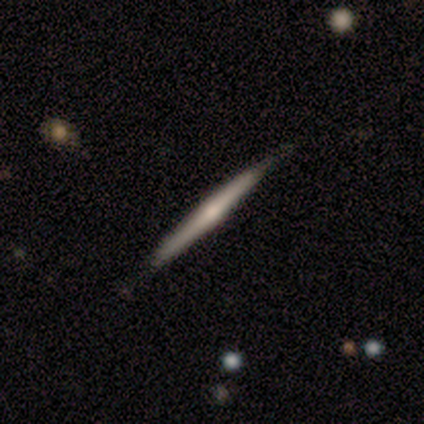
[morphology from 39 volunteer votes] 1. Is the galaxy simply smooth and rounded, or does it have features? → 54% featured or disk, 31% smooth, 15% star or artifact.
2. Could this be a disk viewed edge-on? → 100% yes, 0% no.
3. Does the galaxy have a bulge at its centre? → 67% rounded, 29% none, 5% boxy.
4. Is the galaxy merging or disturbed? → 94% none, 3% minor disturbance, 3% merger, 0% major disturbance.